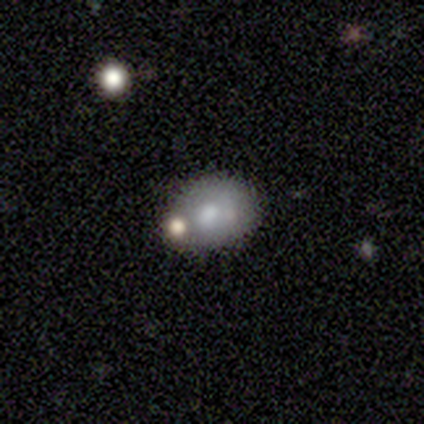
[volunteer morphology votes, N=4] A smooth galaxy with no disk features (75%) that is in between round and cigar-shaped (67%). Merging: none (100%).